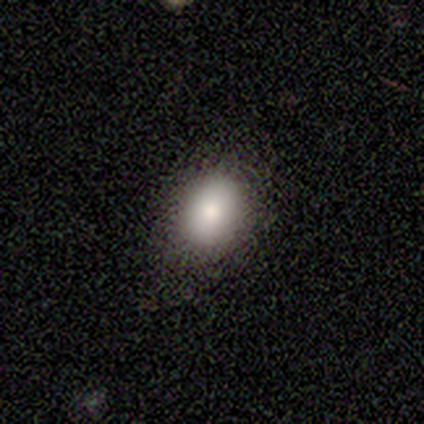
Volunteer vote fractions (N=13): Morphology: type=smooth (100%); roundness=in between (69%); merging=none (85%).